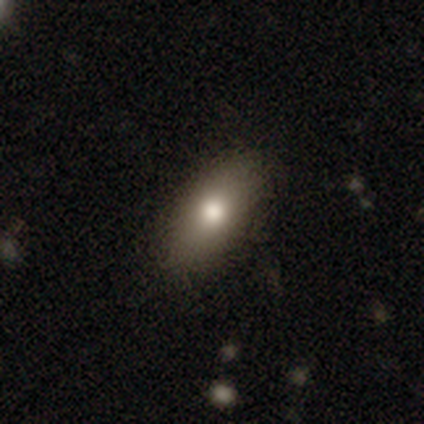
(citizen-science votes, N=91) A smooth galaxy with no disk features (77%) that is in between round and cigar-shaped (89%).

Vote fractions:
- Smooth or featured? smooth: 77% / featured or disk: 14% / star or artifact: 9%
- How rounded? in between: 89% / cigar-shaped: 7% / round: 4%
- Merging? none: 84% / minor disturbance: 14% / merger: 1% / major disturbance: 0%